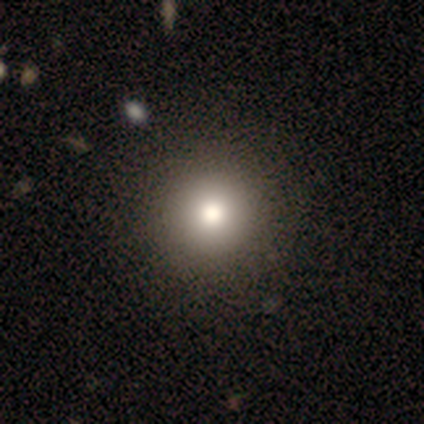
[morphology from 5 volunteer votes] Smooth or featured?
  - smooth: 60% *
  - featured or disk: 40%
  - star or artifact: 0%
How rounded?
  - round: 100% *
  - in between: 0%
  - cigar-shaped: 0%
Merging?
  - none: 100% *
  - minor disturbance: 0%
  - major disturbance: 0%
  - merger: 0%